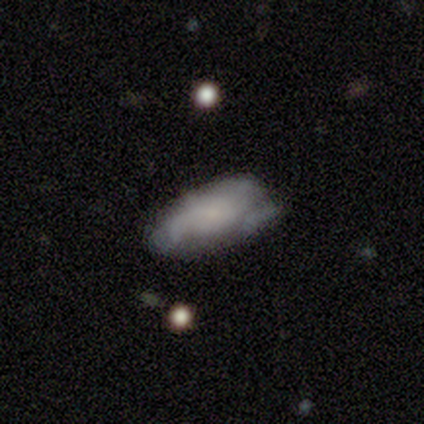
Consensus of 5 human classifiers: A featured or disk galaxy (60%) with a weak bar (67%), medium (67%) spiral arms (100%) and a small central bulge (100%).

Vote fractions:
- Smooth or featured? featured or disk: 60% / smooth: 40% / star or artifact: 0%
- Edge-on disk? no: 100% / yes: 0%
- Bar? weak: 67% / no: 33% / strong: 0%
- Spiral arms? yes: 100% / no: 0%
- Spiral winding? medium: 67% / loose: 33% / tight: 0%
- Spiral arm count? can't tell: 67% / 3: 33% / 1: 0% / 2: 0% / 4: 0% / more than 4: 0%
- Bulge size? small: 100% / dominant: 0% / large: 0% / moderate: 0% / none: 0%
- Merging? none: 40% (tied) / minor disturbance: 40% (tied) / merger: 20% / major disturbance: 0%